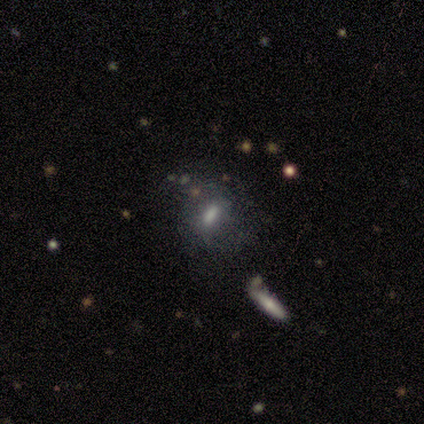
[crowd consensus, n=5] smooth 60%, star or artifact 40%, featured or disk 0%. Down the decision tree: how rounded — in between (100%); merging — none (100%).